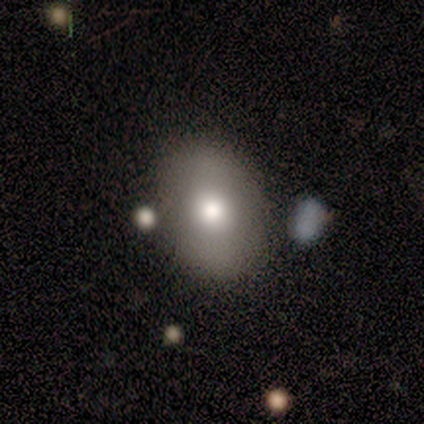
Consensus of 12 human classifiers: This is likely a smooth galaxy (75%). How rounded: likely in between (67%). Merging: possibly none (50%, tied with minor disturbance).